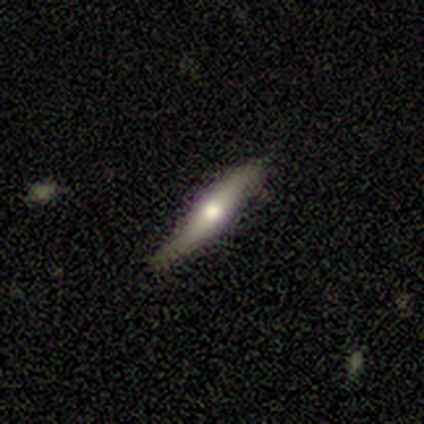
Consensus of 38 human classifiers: Smooth or featured: featured or disk — 55% (smooth — 45%)
Edge-on disk: yes — 95% (no — 5%)
Edge-on bulge: rounded — 95% (none — 5%)
Merging: none — 89% (minor disturbance — 8%)